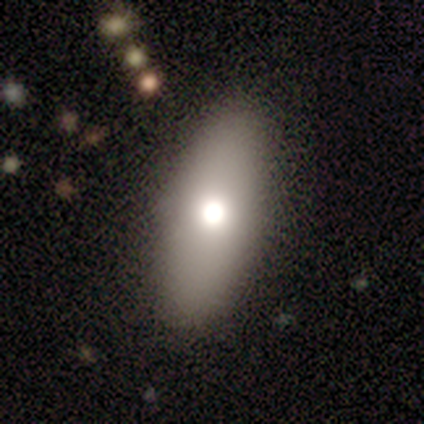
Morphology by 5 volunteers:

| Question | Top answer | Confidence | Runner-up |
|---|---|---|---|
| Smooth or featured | featured or disk | 40% | tied: star or artifact (40%) |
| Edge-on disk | yes | 50% | tied: no (50%) |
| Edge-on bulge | rounded | 100% | — |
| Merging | none | 100% | — |